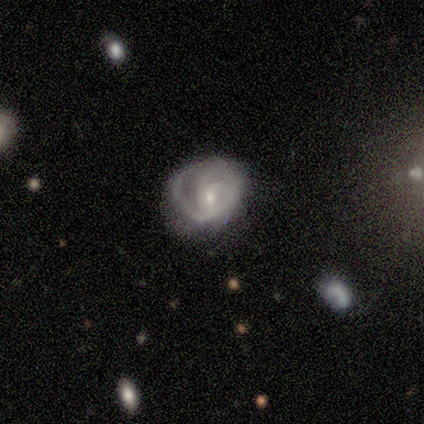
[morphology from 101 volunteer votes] This is clearly a featured or disk galaxy (88%). It is clearly not viewed edge-on (99%). Bar: likely no (61%). Spiral arm pattern: clearly yes (89%). Spiral arm count: marginally 3 (40%). Spiral winding: likely tight (65%). Central bulge: likely small (60%). Merging: marginally none (44%).